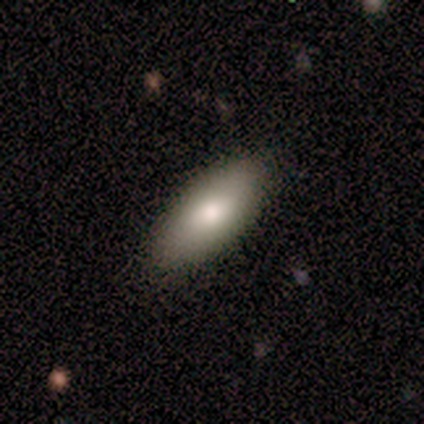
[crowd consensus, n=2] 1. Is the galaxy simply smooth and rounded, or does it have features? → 100% smooth, 0% featured or disk, 0% star or artifact.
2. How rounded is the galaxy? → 50% in between (tied), 50% cigar-shaped (tied), 0% round.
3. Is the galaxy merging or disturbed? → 100% none, 0% minor disturbance, 0% major disturbance, 0% merger.